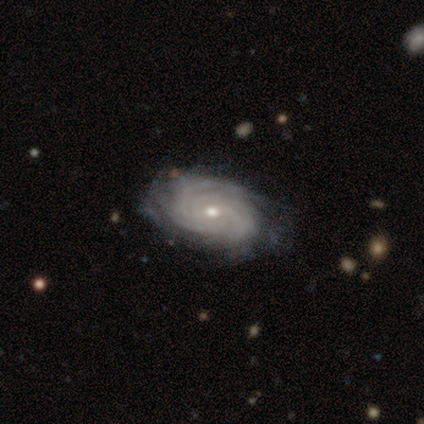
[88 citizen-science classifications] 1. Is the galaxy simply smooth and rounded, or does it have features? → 85% featured or disk, 8% smooth, 7% star or artifact.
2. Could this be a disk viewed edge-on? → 99% no, 1% yes.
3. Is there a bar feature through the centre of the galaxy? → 64% no, 23% weak, 14% strong.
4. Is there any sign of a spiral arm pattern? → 100% yes, 0% no.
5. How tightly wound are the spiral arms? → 77% tight, 20% medium, 3% loose.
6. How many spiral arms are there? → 35% can't tell, 24% more than 4, 19% 3, 16% 4, 5% 2, 0% 1.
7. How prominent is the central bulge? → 50% moderate, 45% small, 4% large, 1% dominant, 0% none.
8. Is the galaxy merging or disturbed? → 68% none, 24% minor disturbance, 6% major disturbance, 1% merger.